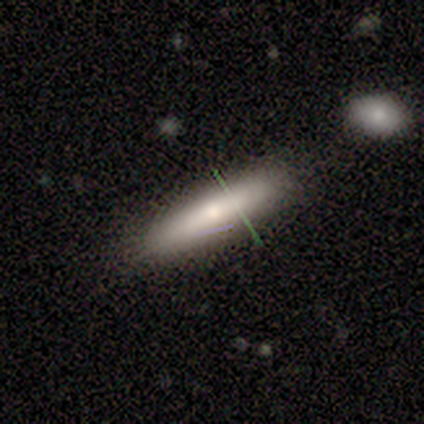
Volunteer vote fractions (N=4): Smooth or featured: smooth — 75% (featured or disk — 25%)
How rounded: in between — 67% (cigar-shaped — 33%)
Merging: none — 50% (minor disturbance — 25%)